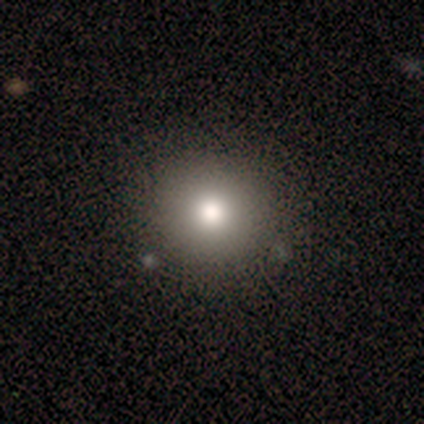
smooth_or_featured: smooth (p=0.60) [alt: featured or disk p=0.20]
how_rounded: round (p=0.67) [alt: in between p=0.33]
merging: none (p=1.00)